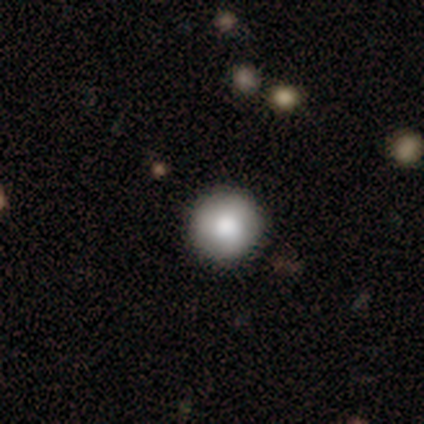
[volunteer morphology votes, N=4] Smooth or featured?
  - smooth: 75% *
  - featured or disk: 25%
  - star or artifact: 0%
How rounded?
  - round: 100% *
  - in between: 0%
  - cigar-shaped: 0%
Merging?
  - none: 100% *
  - minor disturbance: 0%
  - major disturbance: 0%
  - merger: 0%